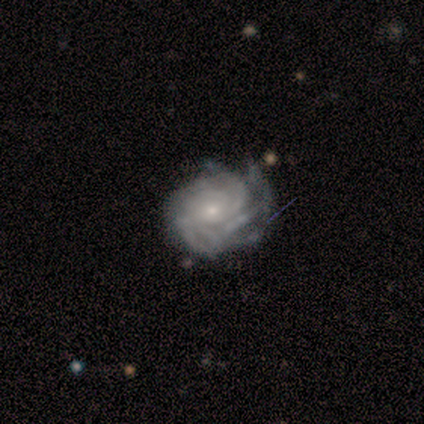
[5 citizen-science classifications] Smooth or featured: featured or disk — 100%
Edge-on disk: no — 100%
Bar: no — 80% (weak — 20%)
Spiral arms: yes — 100%
Spiral winding: tight — 100%
Spiral arm count: can't tell — 40% (3 — 20%)
Bulge size: small — 60% (moderate — 40%)
Merging: minor disturbance — 80% (none — 20%)